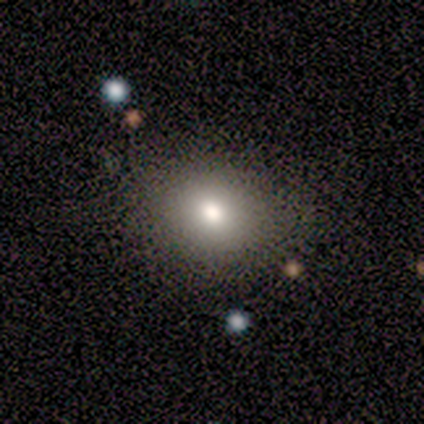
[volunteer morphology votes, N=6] Smooth or featured? smooth (83%)
How rounded? round (60%)
Merging? none (100%)